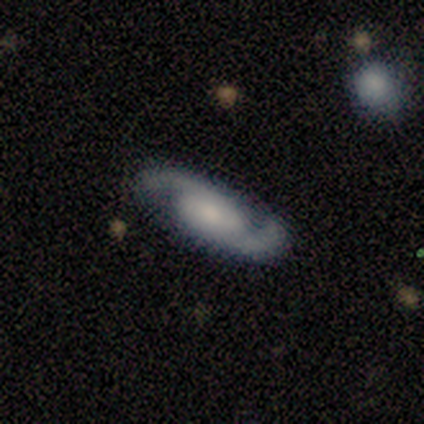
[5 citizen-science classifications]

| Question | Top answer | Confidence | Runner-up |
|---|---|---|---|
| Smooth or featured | featured or disk | 80% | smooth (20%) |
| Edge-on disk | no | 100% | — |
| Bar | weak | 50% | tied: no (50%) |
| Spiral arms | yes | 100% | — |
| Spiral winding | loose | 50% | tight (25%) |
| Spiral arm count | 2 | 100% | — |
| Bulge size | small | 75% | moderate (25%) |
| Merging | none | 100% | — |